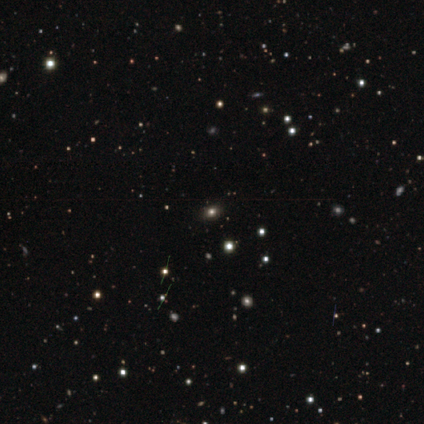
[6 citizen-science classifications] Smooth or featured? smooth (50%, tied with star or artifact)
How rounded? in between (67%)
Merging? none (100%)